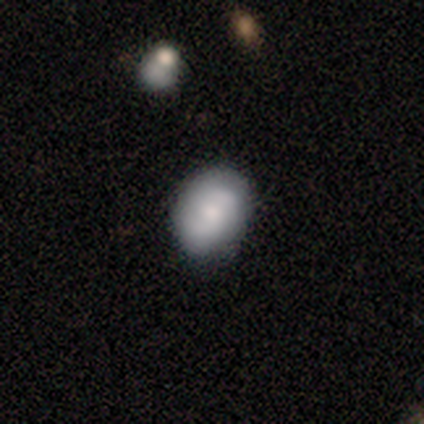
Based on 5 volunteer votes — Smooth or featured?
  - smooth: 100% *
  - featured or disk: 0%
  - star or artifact: 0%
How rounded?
  - round: 60% *
  - in between: 40%
  - cigar-shaped: 0%
Merging?
  - none: 80% *
  - minor disturbance: 20%
  - major disturbance: 0%
  - merger: 0%